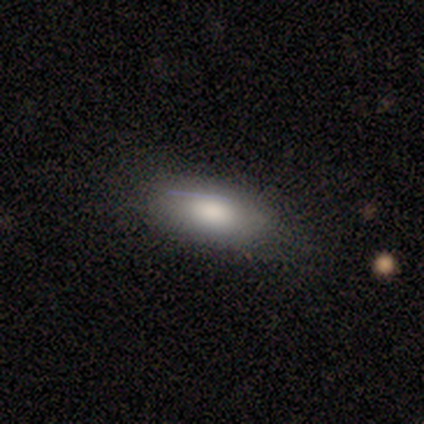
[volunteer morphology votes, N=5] Volunteers were most divided on "merging": none: 60%, minor disturbance: 40%, major disturbance: 0%, merger: 0%. More confident: smooth or featured — smooth (80%); how rounded — in between (75%).